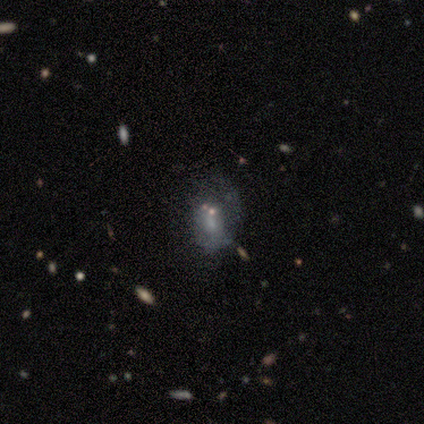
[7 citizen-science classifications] Smooth or featured: smooth — 43% (featured or disk — 29%)
How rounded: in between — 67% (round — 33%)
Merging: minor disturbance — 60% (none — 20%)